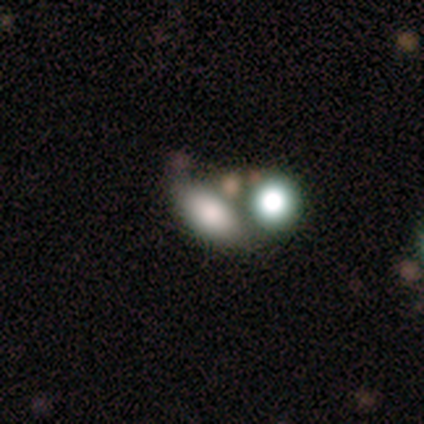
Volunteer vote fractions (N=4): Smooth or featured? 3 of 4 (75%) said smooth. How rounded? 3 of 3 (100%) said in between. Merging? 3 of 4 (75%) said none.